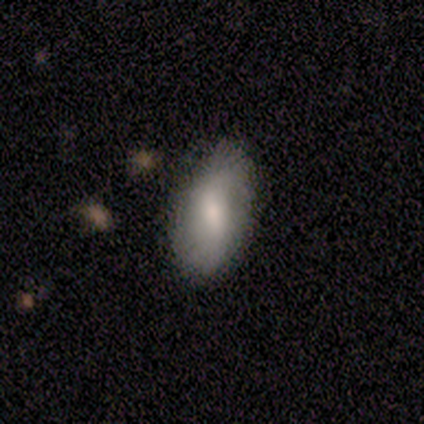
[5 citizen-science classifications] This appears to be a smooth galaxy with no disk features (100%) that is in between round and cigar-shaped (100%). Merging: minor disturbance (60%).